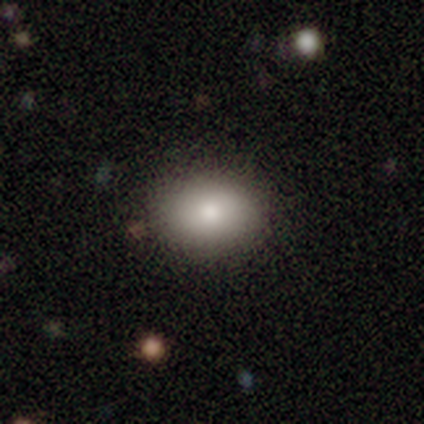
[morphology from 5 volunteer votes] type=smooth (80%); roundness=in between (75%); merging=none (100%).